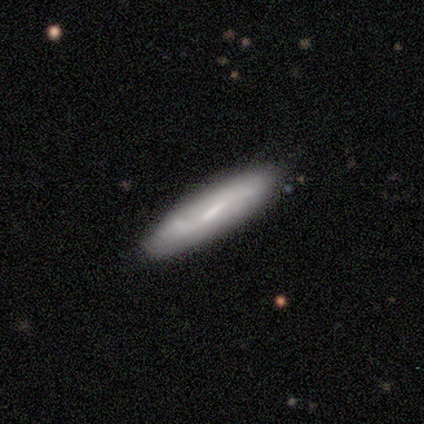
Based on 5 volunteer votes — smooth-or-featured: featured or disk: 80% | smooth: 20% | star or artifact: 0%
  disk-edge-on: yes: 50% (tied) | no: 50% (tied)
    edge-on-bulge: none: 50% (tied) | rounded: 50% (tied) | boxy: 0%
  merging: none: 80% | minor disturbance: 20% | major disturbance: 0% | merger: 0%